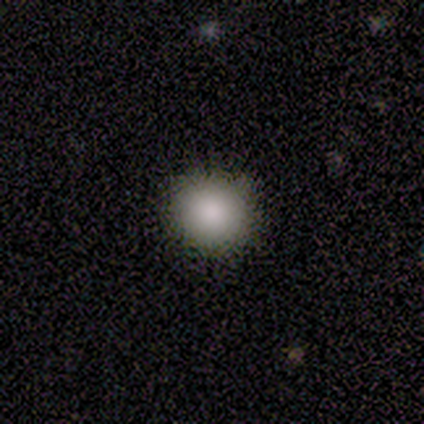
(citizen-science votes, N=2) Consensus on every question: smooth or featured — smooth (100%); how rounded — round (100%); merging — none (100%).